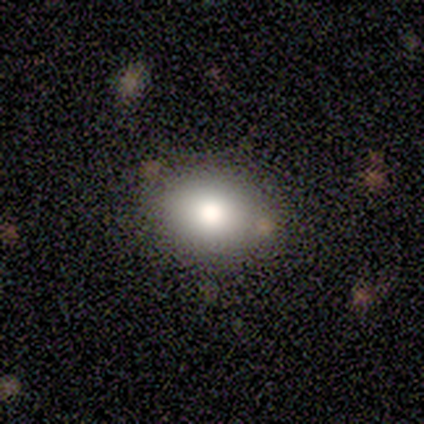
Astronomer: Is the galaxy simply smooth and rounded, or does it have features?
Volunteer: smooth — 40%, tied with star or artifact at 40%.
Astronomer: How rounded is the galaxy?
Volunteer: in between — 100%.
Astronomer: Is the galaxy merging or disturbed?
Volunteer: none — 100%.